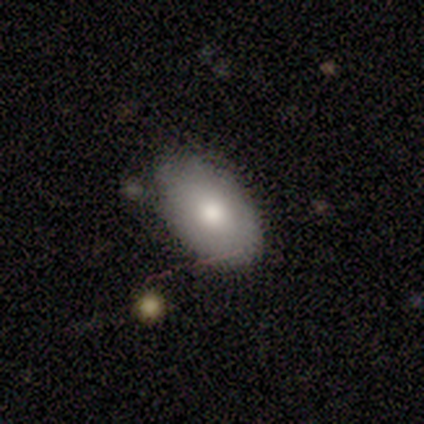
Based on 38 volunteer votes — This is likely a smooth galaxy (74%). How rounded: clearly in between (93%). Merging: clearly none (89%).